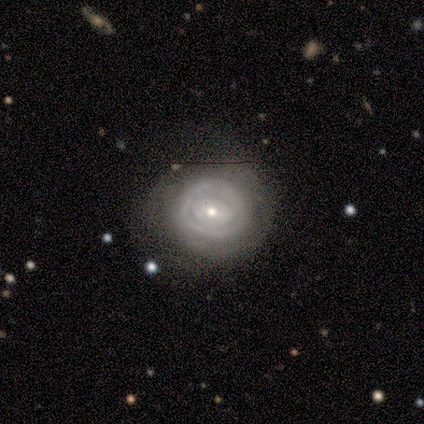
Smooth or featured? featured or disk (68%)
Edge-on disk? no (96%)
Bar? weak (50%)
Spiral arms? yes (54%)
Spiral winding? tight (93%)
Spiral arm count? can't tell (43%)
Bulge size? small (73%)
Merging? none (64%)